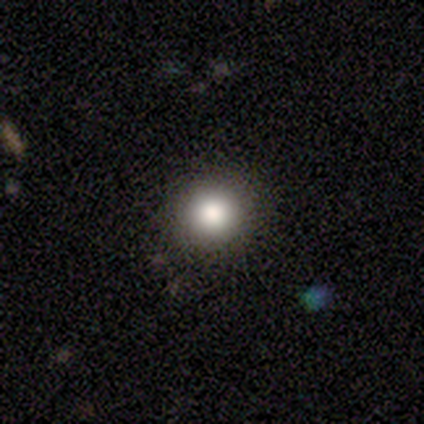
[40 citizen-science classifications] Q: Smooth or featured?
A: smooth (82%); runner-up: featured or disk (10%)
Q: How rounded?
A: round (94%); runner-up: in between (6%)
Q: Merging?
A: none (89%); runner-up: minor disturbance (5%)